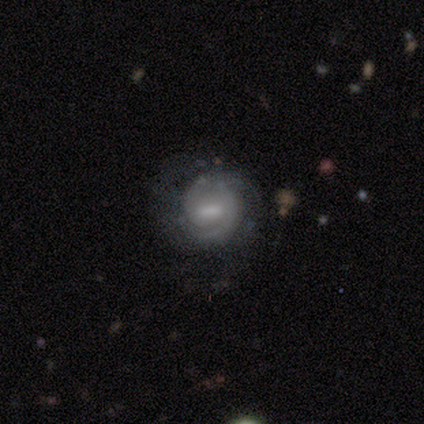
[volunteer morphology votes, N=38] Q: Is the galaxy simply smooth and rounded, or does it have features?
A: featured or disk — 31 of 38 (82%).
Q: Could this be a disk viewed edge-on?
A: no — 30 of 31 (97%).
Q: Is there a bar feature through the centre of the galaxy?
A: weak — 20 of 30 (67%).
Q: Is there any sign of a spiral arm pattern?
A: yes — 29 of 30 (97%).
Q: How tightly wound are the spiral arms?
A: tight — 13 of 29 (45%).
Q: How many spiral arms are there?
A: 2 — 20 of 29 (69%).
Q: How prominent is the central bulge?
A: small — 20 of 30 (67%).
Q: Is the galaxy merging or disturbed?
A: none — 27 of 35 (77%).